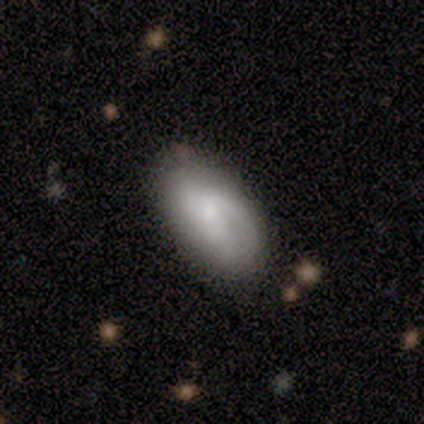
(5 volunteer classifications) smooth 60%, featured or disk 40%, star or artifact 0%. Down the decision tree: how rounded — in between (100%); merging — none (60%).